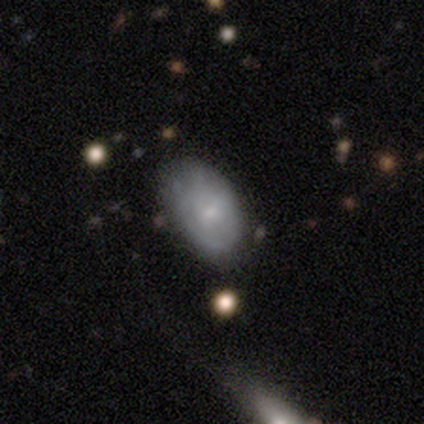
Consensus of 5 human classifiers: Smooth or featured?
  - smooth: 60% *
  - featured or disk: 40%
  - star or artifact: 0%
How rounded?
  - in between: 67% *
  - round: 33%
  - cigar-shaped: 0%
Merging?
  - none: 60% *
  - minor disturbance: 20%
  - major disturbance: 20%
  - merger: 0%